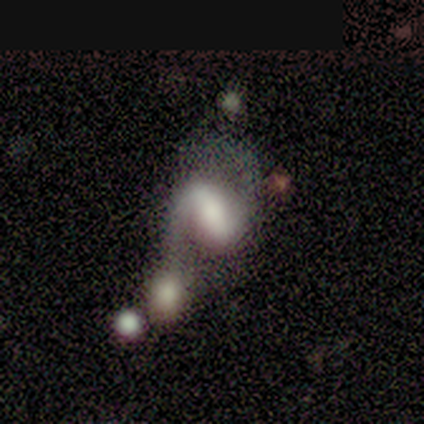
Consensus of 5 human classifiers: Overall: featured or disk (60%; smooth 40%). Edge-on disk: no (100%). Bar: strong (100%). Spiral arms: yes (100%). Spiral arm count: 2 (100%). Spiral winding: loose (100%). Bulge size: moderate (100%). Merging: merger (80%).